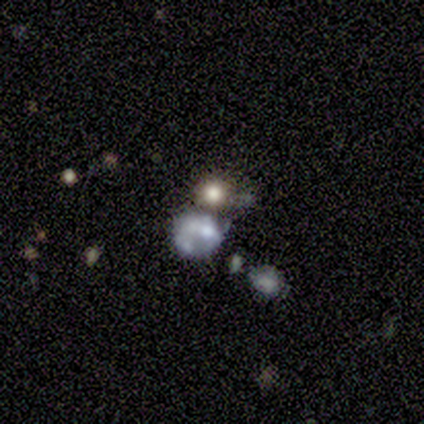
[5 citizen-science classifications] A smooth galaxy with no disk features (40%, tied with featured or disk) that is round (100%).

Vote fractions:
- Smooth or featured? smooth: 40% (tied) / featured or disk: 40% (tied) / star or artifact: 20%
- How rounded? round: 100% / in between: 0% / cigar-shaped: 0%
- Merging? none: 50% / major disturbance: 25% / merger: 25% / minor disturbance: 0%